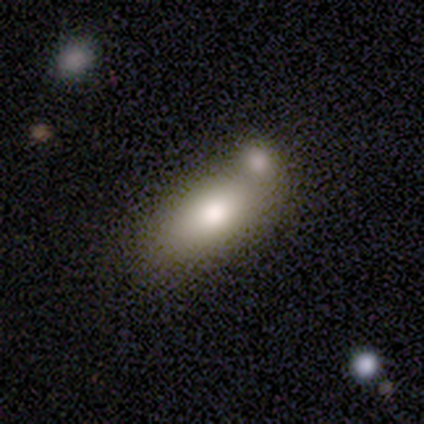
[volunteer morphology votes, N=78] This appears to be a smooth galaxy with no disk features (77%) that is in between round and cigar-shaped (85%). Merging: merger (51%).